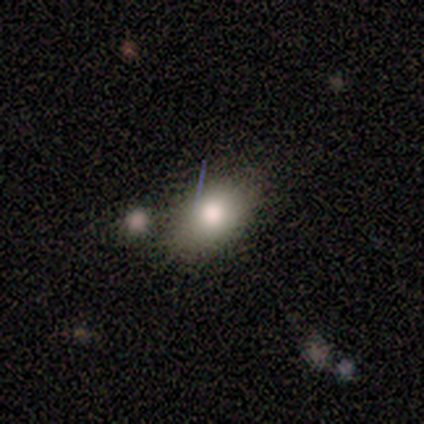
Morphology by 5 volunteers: type=smooth (80%); roundness=in between (100%); merging=none (40%).